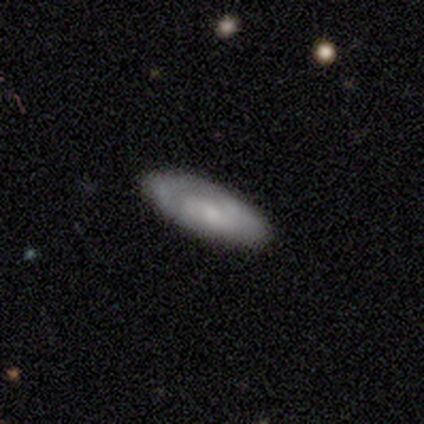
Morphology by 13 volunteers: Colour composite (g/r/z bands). It shows a smooth galaxy with no disk features (46%, tied with featured or disk) that is in between round and cigar-shaped (83%). Merging: none (75%).